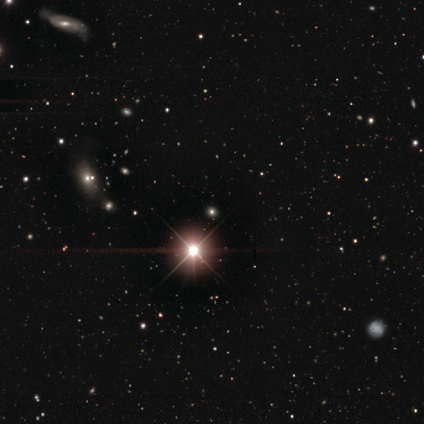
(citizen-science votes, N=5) Q: Smooth or featured?
A: star or artifact (80%); runner-up: smooth (20%)